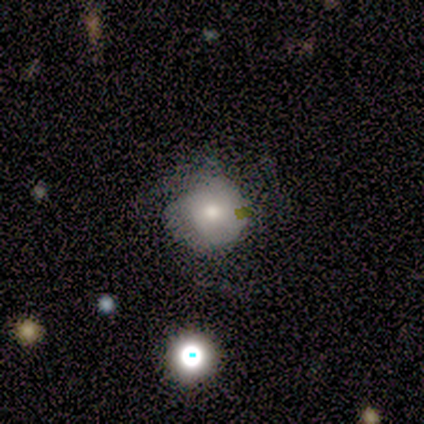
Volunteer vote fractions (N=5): Volunteers were most divided on "spiral arm count" (4-way tie): 2: 25%, 3: 25%, 4: 25%, can't tell: 25%, 1: 0%, more than 4: 0%. More confident: edge-on disk — no (100%); bar — no (100%); spiral arms — yes (100%); smooth or featured — featured or disk (80%); bulge size — small (75%); merging — none (60%); spiral winding — tight (50%).